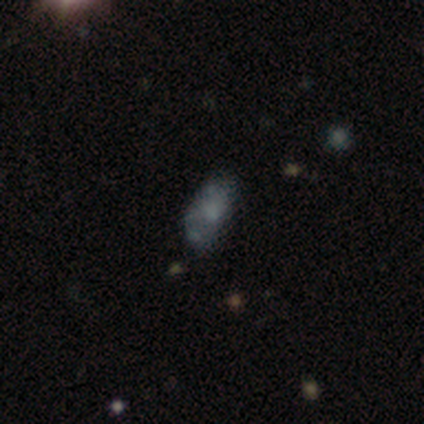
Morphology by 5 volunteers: smooth-or-featured: smooth: 60% | featured or disk: 40% | star or artifact: 0%
  how-rounded: in between: 100% | round: 0% | cigar-shaped: 0%
  merging: none: 40% (tied) | merger: 40% (tied) | minor disturbance: 20% | major disturbance: 0%